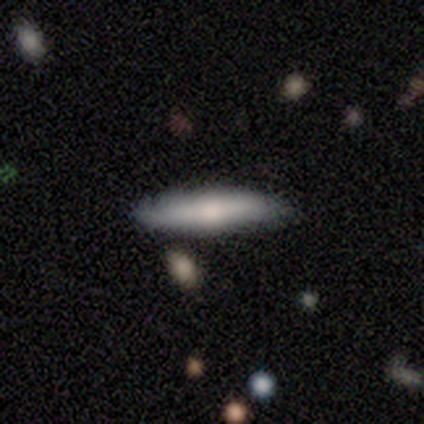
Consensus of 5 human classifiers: Smooth or featured?
  - smooth: 80% *
  - featured or disk: 20%
  - star or artifact: 0%
How rounded?
  - cigar-shaped: 100% *
  - round: 0%
  - in between: 0%
Merging?
  - none: 60% *
  - minor disturbance: 40%
  - major disturbance: 0%
  - merger: 0%